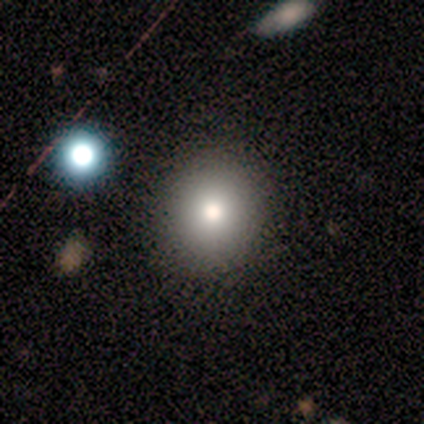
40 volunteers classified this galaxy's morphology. Smooth or featured: smooth — 88% (featured or disk — 10%)
How rounded: round — 91% (in between — 9%)
Merging: none — 69% (merger — 5%)